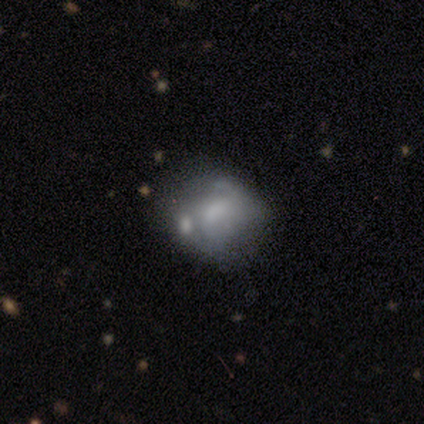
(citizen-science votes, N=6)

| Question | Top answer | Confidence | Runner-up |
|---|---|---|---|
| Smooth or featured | featured or disk | 67% | smooth (33%) |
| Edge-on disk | no | 100% | — |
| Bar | no | 100% | — |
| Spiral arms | no | 100% | — |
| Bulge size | none | 50% | moderate (25%) |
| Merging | merger | 50% | none (17%) |